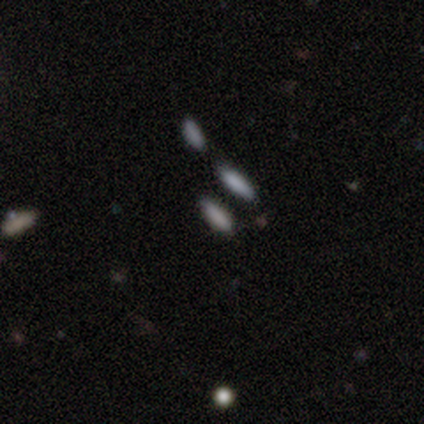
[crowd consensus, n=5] This is clearly a smooth galaxy (80%). How rounded: clearly cigar-shaped (100%). Merging: clearly none (100%).